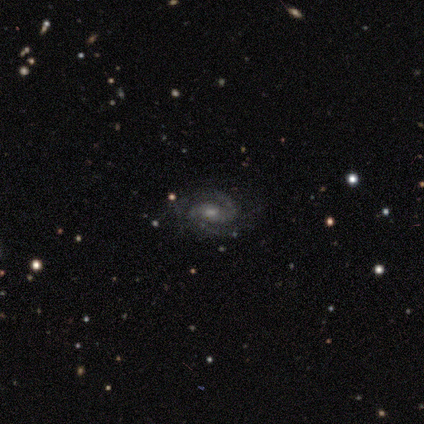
This is clearly a featured or disk galaxy (89%). It is clearly not viewed edge-on (100%). Bar: possibly no (47%). Spiral arm pattern: clearly yes (100%). Spiral arm count: clearly 2 (88%). Spiral winding: marginally tight (44%, tied with medium). Central bulge: possibly small (53%). Merging: clearly none (83%).